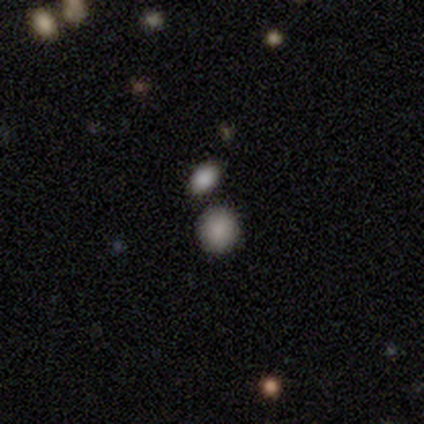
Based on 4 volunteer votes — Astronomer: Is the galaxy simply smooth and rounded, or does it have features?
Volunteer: smooth — 100%.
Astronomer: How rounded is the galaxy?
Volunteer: round — 75%.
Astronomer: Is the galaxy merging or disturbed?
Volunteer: none — 100%.